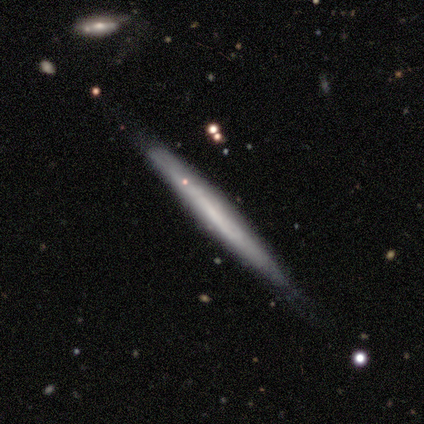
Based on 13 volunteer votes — This is possibly a smooth galaxy (54%). How rounded: clearly cigar-shaped (100%). Merging: likely none (69%).